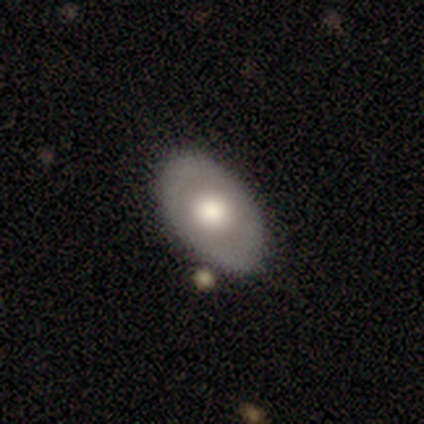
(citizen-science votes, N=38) This is possibly a featured or disk galaxy (47%). It is clearly not viewed edge-on (100%). Bar: clearly no (89%). Spiral arm pattern: clearly no (100%). Central bulge: possibly large (56%). Merging: likely none (77%).